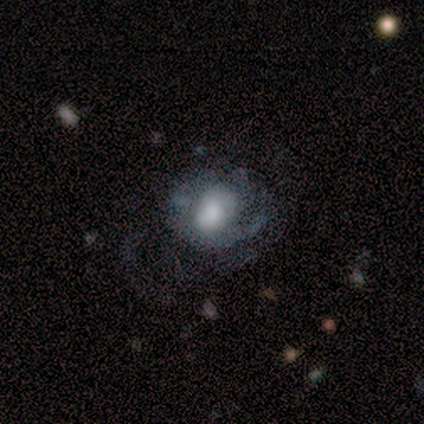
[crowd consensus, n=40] Overall: featured or disk (52%; smooth 30%). Edge-on disk: no (95%). Bar: no (70%; weak 30%). Spiral arms: yes (75%). Spiral arm count: can't tell (53%; 2 20%). Spiral winding: medium (47%; loose 33%). Bulge size: moderate (45%; small 30%). Merging: major disturbance (39%; minor disturbance 33%).